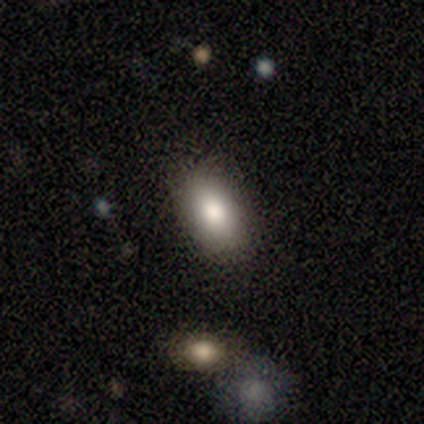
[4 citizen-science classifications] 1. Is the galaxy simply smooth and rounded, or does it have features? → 100% smooth, 0% featured or disk, 0% star or artifact.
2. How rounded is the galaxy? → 100% in between, 0% round, 0% cigar-shaped.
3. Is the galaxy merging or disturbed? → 100% none, 0% minor disturbance, 0% major disturbance, 0% merger.